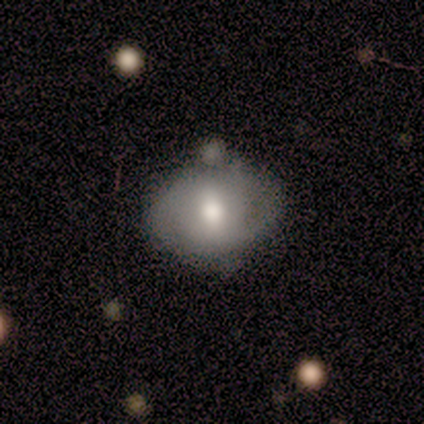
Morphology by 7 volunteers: Q: Smooth or featured?
A: smooth (57%); runner-up: featured or disk (43%)
Q: How rounded?
A: in between (75%); runner-up: round (25%)
Q: Merging?
A: minor disturbance (57%); runner-up: none (43%)